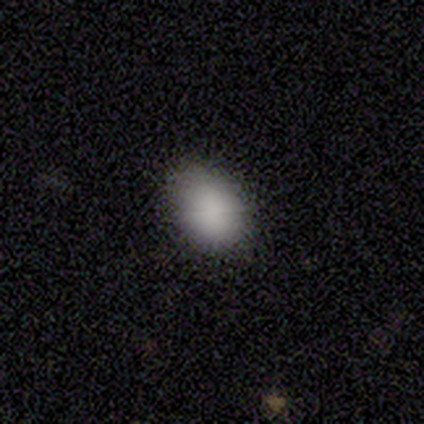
Overall: smooth (100%). How rounded: in between (83%). Merging: none (83%).